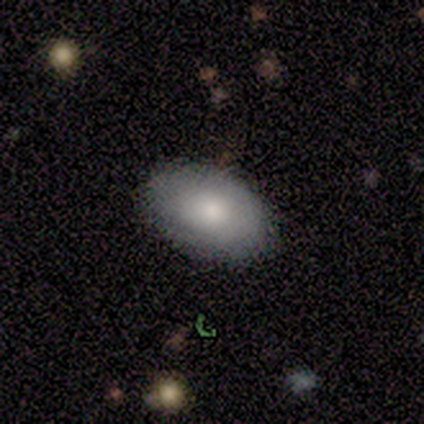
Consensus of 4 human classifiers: smooth-or-featured: smooth: 100% | featured or disk: 0% | star or artifact: 0%
  how-rounded: in between: 75% | round: 25% | cigar-shaped: 0%
  merging: none: 75% | major disturbance: 25% | minor disturbance: 0% | merger: 0%